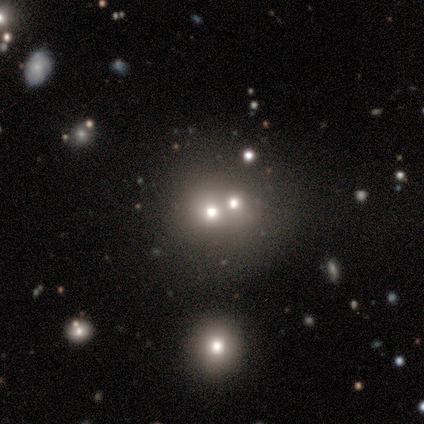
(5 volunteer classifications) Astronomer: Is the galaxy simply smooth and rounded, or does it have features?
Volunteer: smooth — 40%, tied with featured or disk at 40%.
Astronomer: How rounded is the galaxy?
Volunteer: round — 100%.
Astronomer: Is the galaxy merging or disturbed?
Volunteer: merger — 50%.